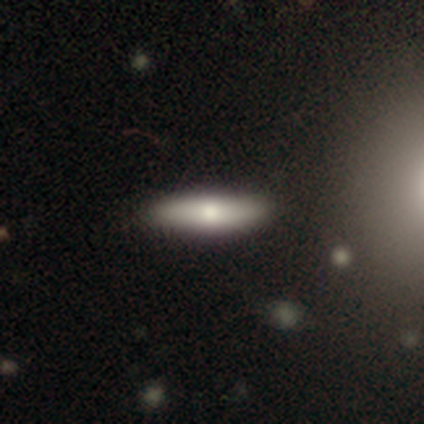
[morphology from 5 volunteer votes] Overall: featured or disk (60%; smooth 40%). Edge-on disk: yes (100%). Edge-on bulge: rounded (100%). Merging: none (100%).